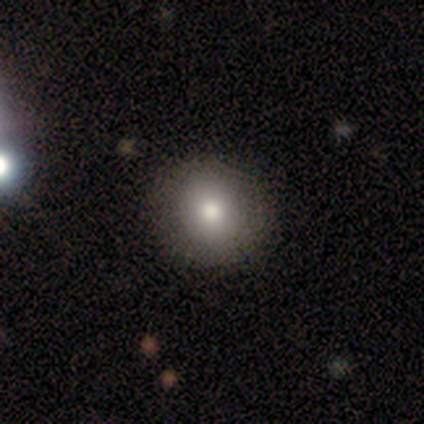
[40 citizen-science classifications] Q: Smooth or featured?
A: smooth (68%); runner-up: featured or disk (25%)
Q: How rounded?
A: round (89%); runner-up: in between (11%)
Q: Merging?
A: none (92%); runner-up: minor disturbance (5%)